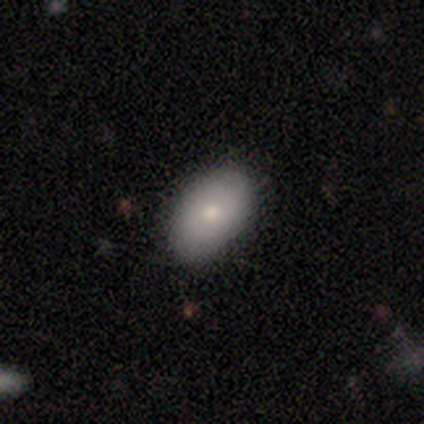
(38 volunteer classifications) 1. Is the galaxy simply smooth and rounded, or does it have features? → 63% smooth, 29% featured or disk, 8% star or artifact.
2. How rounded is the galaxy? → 96% in between, 4% round, 0% cigar-shaped.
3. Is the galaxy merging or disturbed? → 91% none, 6% minor disturbance, 3% major disturbance, 0% merger.